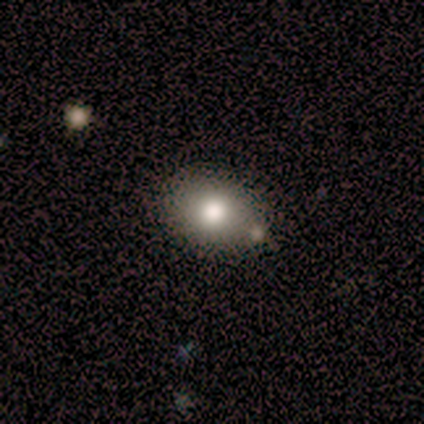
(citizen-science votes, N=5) This is clearly a smooth galaxy (80%). How rounded: clearly in between (100%). Merging: clearly none (80%).